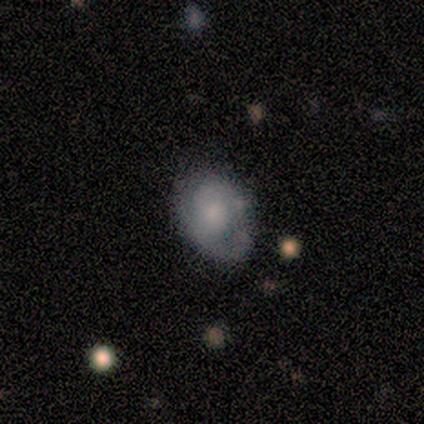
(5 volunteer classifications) A smooth galaxy with no disk features (100%) that is in between round and cigar-shaped (80%). Merging: none (80%).